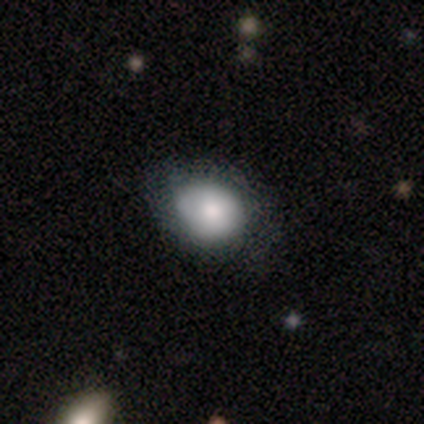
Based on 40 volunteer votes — Smooth or featured: smooth — 72% (featured or disk — 25%)
How rounded: in between — 59% (round — 41%)
Merging: none — 64% (minor disturbance — 36%)